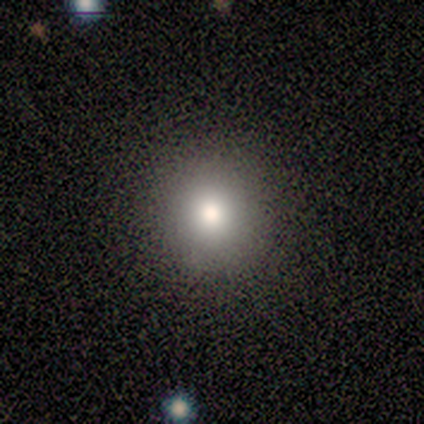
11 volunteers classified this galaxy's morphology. Smooth or featured: smooth — 82% (star or artifact — 18%)
How rounded: round — 100%
Merging: none — 89% (minor disturbance — 11%)